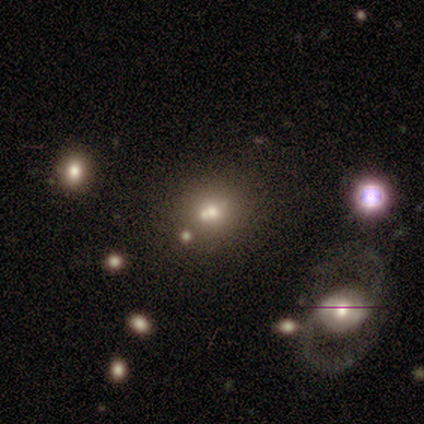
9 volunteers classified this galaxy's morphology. Smooth or featured?
  - featured or disk: 44% *
  - smooth: 33%
  - star or artifact: 22%
Edge-on disk?
  - no: 100% *
  - yes: 0%
Bar?
  - no: 75% *
  - weak: 25%
  - strong: 0%
Spiral arms?
  - no: 100% *
  - yes: 0%
Bulge size?
  - moderate: 50% * (tied)
  - small: 50% * (tied)
  - dominant: 0%
  - large: 0%
  - none: 0%
Merging?
  - none: 43% * (tied)
  - merger: 43% * (tied)
  - minor disturbance: 14%
  - major disturbance: 0%